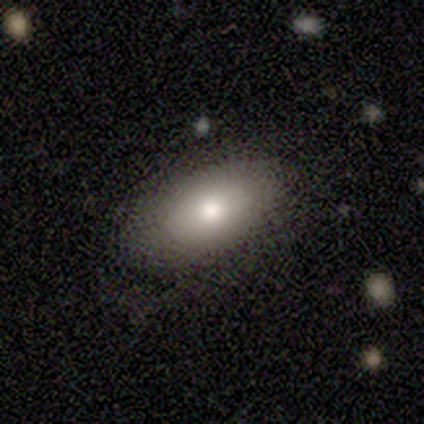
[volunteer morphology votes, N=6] This appears to be a smooth galaxy with no disk features (50%) that is in between round and cigar-shaped (100%). Merging: none (80%).